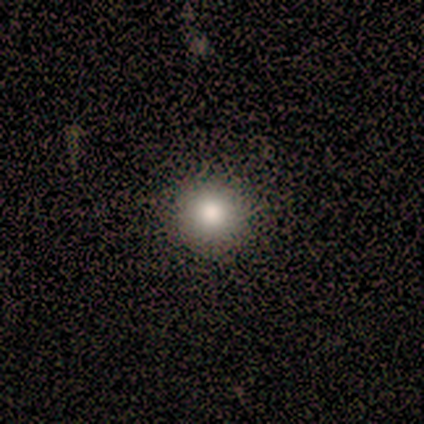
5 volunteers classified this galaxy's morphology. Smooth or featured? smooth (40%, tied with featured or disk)
How rounded? round (100%)
Merging? none (100%)